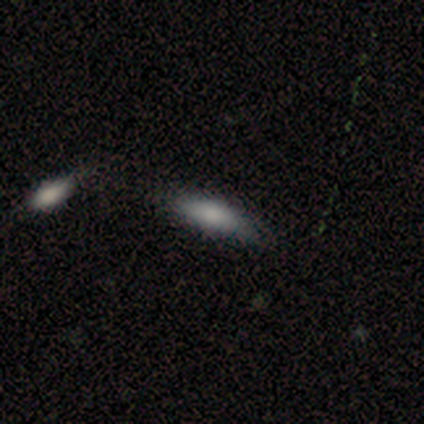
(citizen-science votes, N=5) Smooth or featured?
  - smooth: 80% *
  - featured or disk: 20%
  - star or artifact: 0%
How rounded?
  - in between: 100% *
  - round: 0%
  - cigar-shaped: 0%
Merging?
  - minor disturbance: 60% *
  - none: 20%
  - merger: 20%
  - major disturbance: 0%